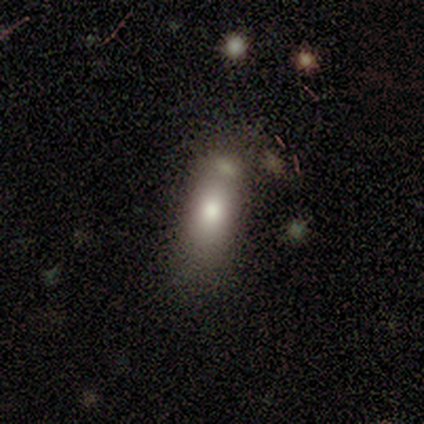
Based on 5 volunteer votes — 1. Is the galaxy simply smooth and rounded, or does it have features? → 80% smooth, 20% featured or disk, 0% star or artifact.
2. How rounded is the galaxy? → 100% in between, 0% round, 0% cigar-shaped.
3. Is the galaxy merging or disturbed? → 60% none, 20% minor disturbance, 20% major disturbance, 0% merger.